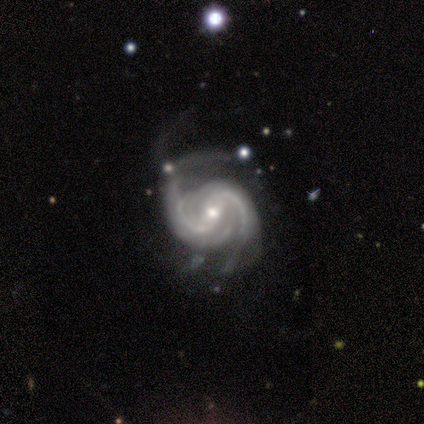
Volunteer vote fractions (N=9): Smooth or featured? featured or disk (89%)
Edge-on disk? no (100%)
Bar? weak (62%)
Spiral arms? yes (100%)
Spiral winding? medium (38%, tied with loose)
Spiral arm count? 2 (50%)
Bulge size? small (62%)
Merging? none (50%)